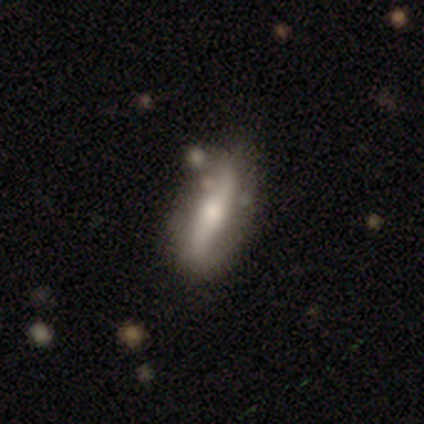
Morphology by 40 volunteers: smooth-or-featured: featured or disk: 52% | smooth: 38% | star or artifact: 10%
  disk-edge-on: no: 62% | yes: 38%
    bar: strong: 46% | no: 38% | weak: 15%
    has-spiral-arms: yes: 62% | no: 38%
      spiral-winding: loose: 88% | tight: 12% | medium: 0%
      spiral-arm-count: 2: 75% | can't tell: 25% | 1: 0% | 3: 0% | 4: 0% | more than 4: 0%
    bulge-size: moderate: 62% | small: 31% | large: 8% | dominant: 0% | none: 0%
  merging: none: 69% | minor disturbance: 19% | merger: 8% | major disturbance: 3%